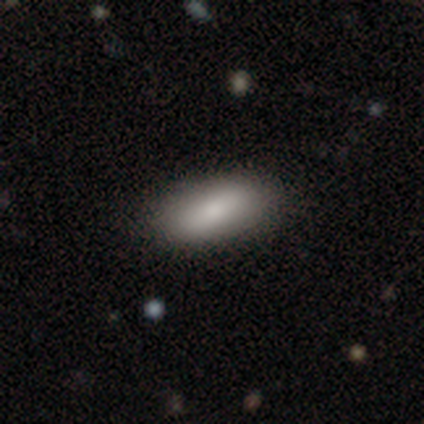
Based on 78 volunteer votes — smooth-or-featured: smooth: 82% | featured or disk: 14% | star or artifact: 4%
  how-rounded: in between: 92% | cigar-shaped: 8% | round: 0%
  merging: none: 51% | minor disturbance: 5% | merger: 4% | major disturbance: 1%